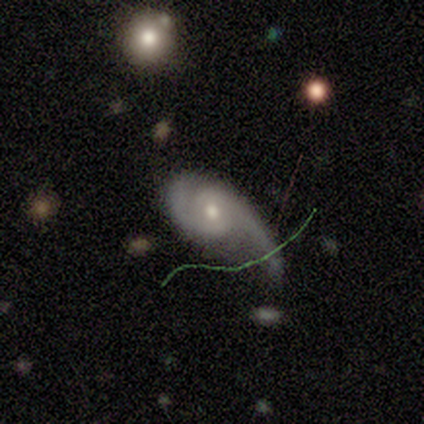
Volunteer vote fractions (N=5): A featured or disk galaxy (60%) with a weak bar (67%), 2 (67%) tight (33%, tied with medium and loose) spiral arms (100%) and a moderate central bulge (67%).

Vote fractions:
- Smooth or featured? featured or disk: 60% / smooth: 20% / star or artifact: 20%
- Edge-on disk? no: 100% / yes: 0%
- Bar? weak: 67% / no: 33% / strong: 0%
- Spiral arms? yes: 100% / no: 0%
- Spiral winding? tight: 33% (tied) / medium: 33% (tied) / loose: 33% (tied)
- Spiral arm count? 2: 67% / can't tell: 33% / 1: 0% / 3: 0% / 4: 0% / more than 4: 0%
- Bulge size? moderate: 67% / small: 33% / dominant: 0% / large: 0% / none: 0%
- Merging? minor disturbance: 50% / none: 25% / major disturbance: 25% / merger: 0%